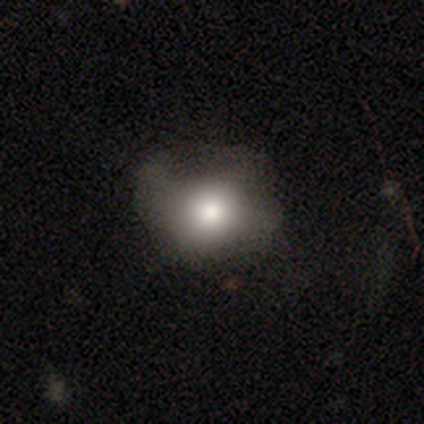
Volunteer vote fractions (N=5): smooth_or_featured: smooth (p=0.60) [alt: featured or disk p=0.20]
how_rounded: in between (p=1.00)
merging: minor disturbance (p=0.75) [alt: none p=0.25]